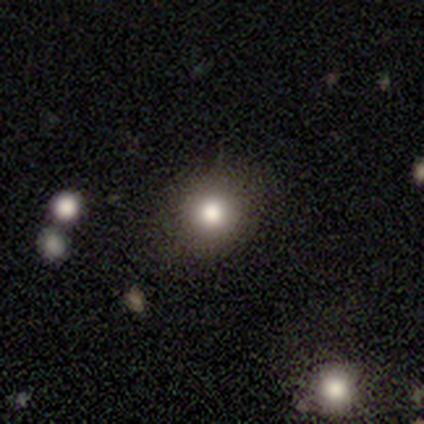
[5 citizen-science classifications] A smooth galaxy with no disk features (60%) that is round (67%).

Vote fractions:
- Smooth or featured? smooth: 60% / featured or disk: 20% / star or artifact: 20%
- How rounded? round: 67% / in between: 33% / cigar-shaped: 0%
- Merging? none: 50% / minor disturbance: 25% / major disturbance: 25% / merger: 0%